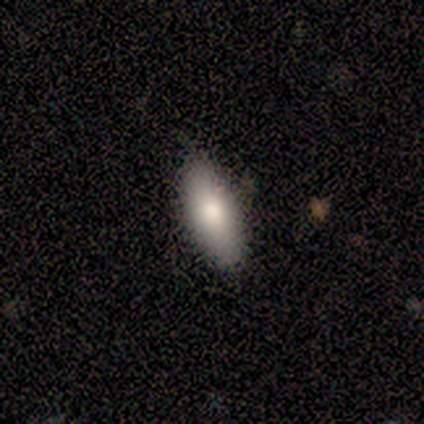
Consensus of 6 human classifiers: Smooth or featured? 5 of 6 (83%) said smooth. How rounded? 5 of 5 (100%) said in between. Merging? 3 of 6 (50%, tied with minor disturbance) said none.